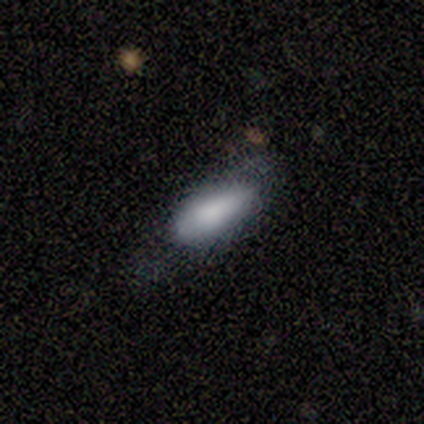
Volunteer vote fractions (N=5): smooth 80%, star or artifact 20%, featured or disk 0%. Down the decision tree: how rounded — in between (50%); merging — none (75%).